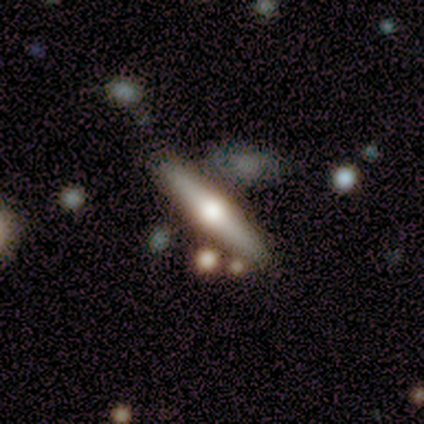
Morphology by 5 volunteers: smooth-or-featured: featured or disk: 80% | smooth: 20% | star or artifact: 0%
  disk-edge-on: yes: 100% | no: 0%
    edge-on-bulge: rounded: 100% | boxy: 0% | none: 0%
  merging: none: 60% | minor disturbance: 20% | merger: 20% | major disturbance: 0%